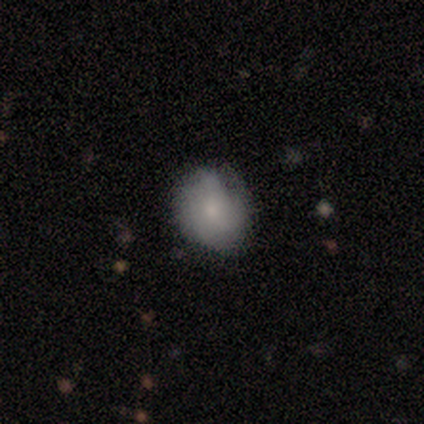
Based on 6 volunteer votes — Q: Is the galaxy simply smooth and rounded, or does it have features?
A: smooth — 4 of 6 (67%).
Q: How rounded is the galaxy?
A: round — 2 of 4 (50%, tied with in between).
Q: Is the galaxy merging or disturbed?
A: minor disturbance — 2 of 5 (40%).